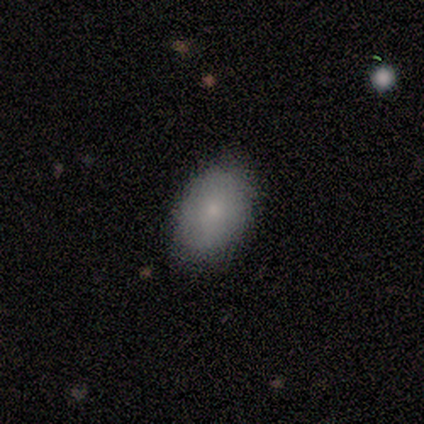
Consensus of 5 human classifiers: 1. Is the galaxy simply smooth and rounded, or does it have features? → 80% smooth, 20% star or artifact, 0% featured or disk.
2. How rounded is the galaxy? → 100% in between, 0% round, 0% cigar-shaped.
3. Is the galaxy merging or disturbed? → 100% none, 0% minor disturbance, 0% major disturbance, 0% merger.